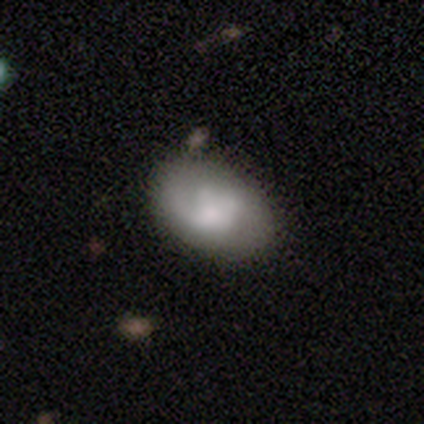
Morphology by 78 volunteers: Smooth or featured: smooth — 72% (featured or disk — 26%)
How rounded: in between — 91% (round — 5%)
Merging: none — 39% (minor disturbance — 17%)